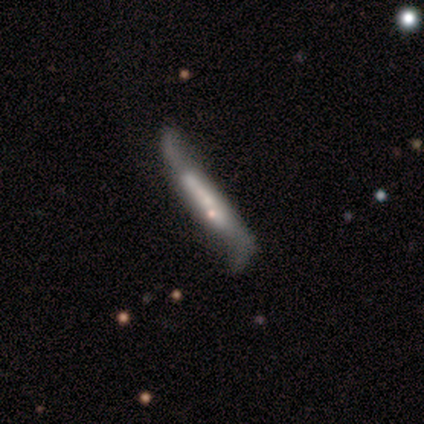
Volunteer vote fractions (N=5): Smooth or featured: smooth — 60% (featured or disk — 40%)
How rounded: cigar-shaped — 100%
Merging: minor disturbance — 40% (tied with major disturbance — 40%)